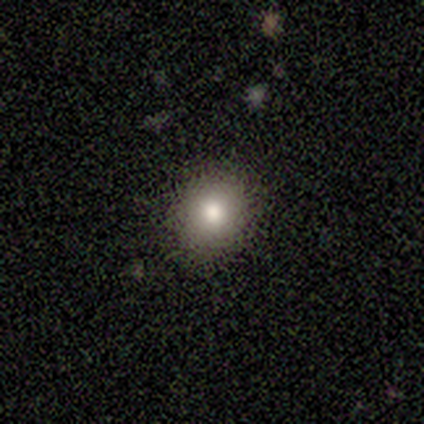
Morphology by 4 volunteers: Smooth or featured? smooth (50%)
How rounded? round (50%, tied with in between)
Merging? none (100%)